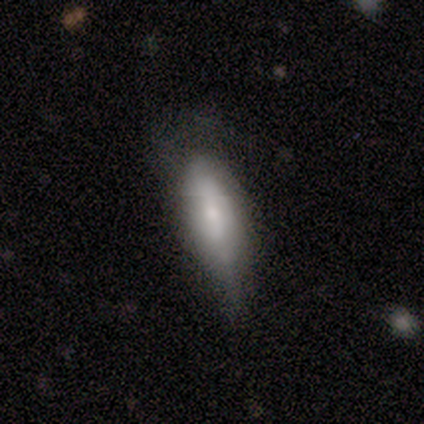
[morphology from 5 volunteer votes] type=smooth (60%); roundness=in between (67%); merging=minor disturbance (75%).